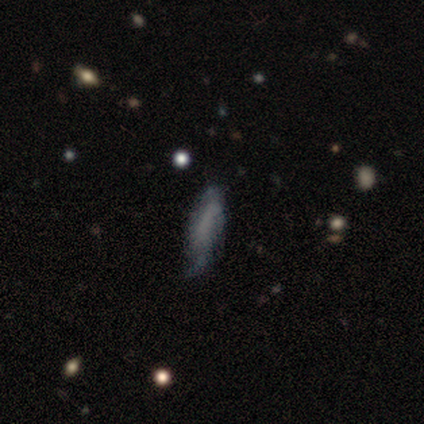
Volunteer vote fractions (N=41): A smooth galaxy with no disk features (49%) that is in between round and cigar-shaped (50%, tied with cigar-shaped).

Vote fractions:
- Smooth or featured? smooth: 49% / featured or disk: 46% / star or artifact: 5%
- How rounded? in between: 50% (tied) / cigar-shaped: 50% (tied) / round: 0%
- Merging? minor disturbance: 49% / none: 33% / major disturbance: 15% / merger: 3%